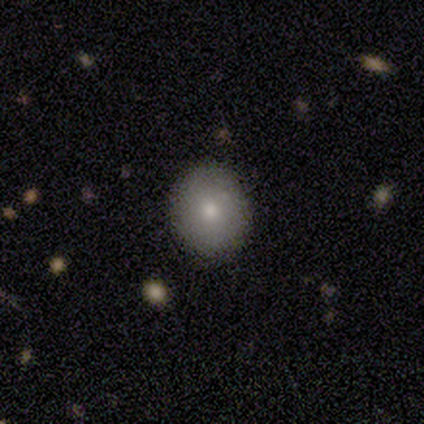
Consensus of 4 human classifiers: This appears to be a smooth galaxy with no disk features (50%) that is in between round and cigar-shaped (100%). Merging: minor disturbance (67%).